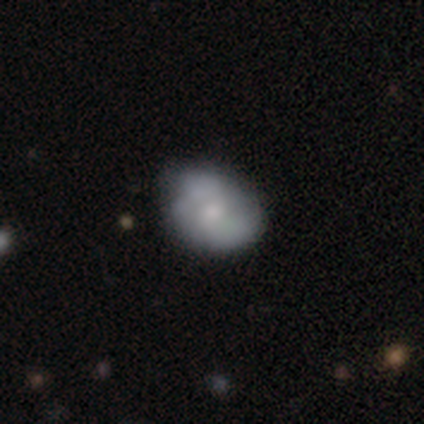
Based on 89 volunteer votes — Volunteers were most divided on "bulge size": small: 45%, moderate: 40%, none: 10%, large: 5%, dominant: 0%. Remaining: edge-on disk — no (95%); bar — no (85%); spiral arms — yes (65%); merging — none (65%); spiral arm count — 2 (58%); smooth or featured — featured or disk (47%); spiral winding — medium (46%).